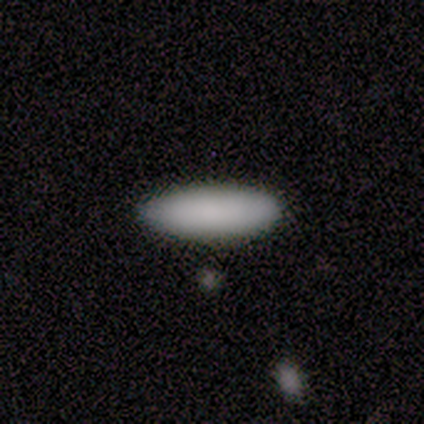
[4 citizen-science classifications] A smooth galaxy with no disk features (100%) that is in between round and cigar-shaped (100%). Merging: none (100%).